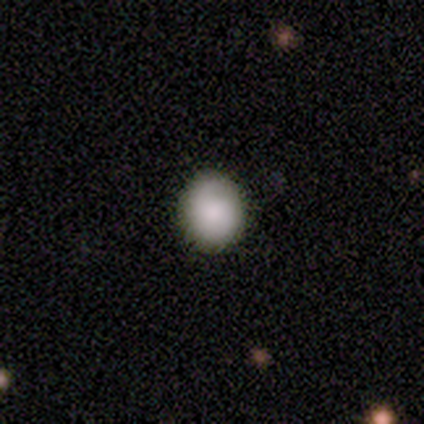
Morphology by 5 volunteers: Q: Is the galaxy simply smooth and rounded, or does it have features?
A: smooth — 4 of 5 (80%).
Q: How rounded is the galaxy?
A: round — 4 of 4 (100%).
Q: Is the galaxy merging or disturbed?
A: none — 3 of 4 (75%).